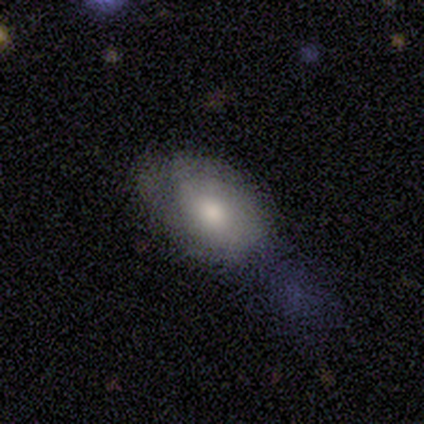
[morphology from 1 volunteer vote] A smooth galaxy with no disk features (100%) that is in between round and cigar-shaped (100%). Merging: none (100%).